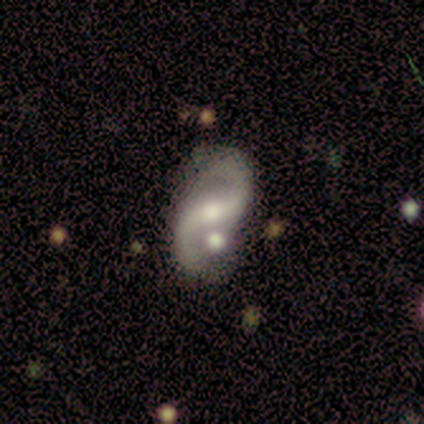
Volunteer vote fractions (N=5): Morphology: type=featured or disk (100%); edge-on=no (80%); bar=weak (50%); spiral arms=yes (100%); winding=loose (75%); arm count=2 (75%); bulge=moderate (50%, tied with small); merging=none (40%, tied with minor disturbance).